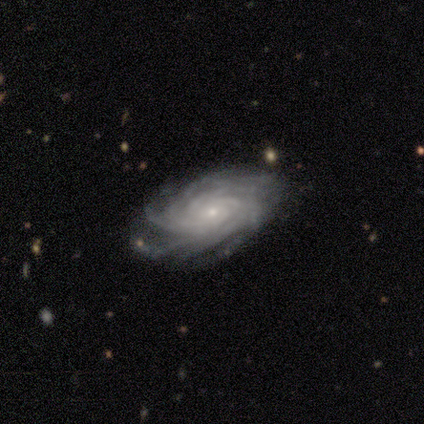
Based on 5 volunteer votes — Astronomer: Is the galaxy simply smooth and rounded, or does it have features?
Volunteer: featured or disk — 100%.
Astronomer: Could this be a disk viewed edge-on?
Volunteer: no — 100%.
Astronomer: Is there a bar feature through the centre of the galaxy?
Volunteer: no — 80%.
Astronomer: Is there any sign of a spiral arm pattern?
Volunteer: yes — 80%.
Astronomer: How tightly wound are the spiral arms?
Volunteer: tight — 75%.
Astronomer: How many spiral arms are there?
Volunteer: more than 4 — 50%, tied with can't tell at 50%.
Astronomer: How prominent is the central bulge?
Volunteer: small — 60%.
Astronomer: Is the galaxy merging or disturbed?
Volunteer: none — 80%.